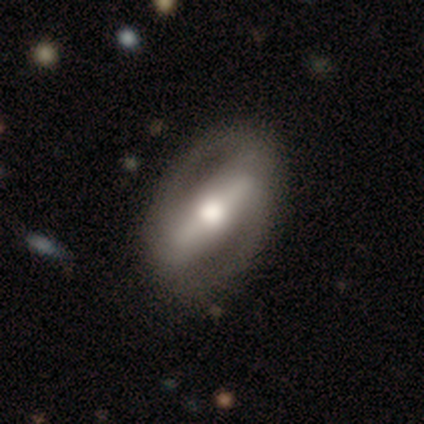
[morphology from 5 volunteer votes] smooth_or_featured: featured or disk (p=0.60) [alt: smooth p=0.40]
disk_edge_on: yes (p=0.67) [alt: no p=0.33]
edge_on_bulge: rounded (p=1.00)
merging: none (p=1.00)